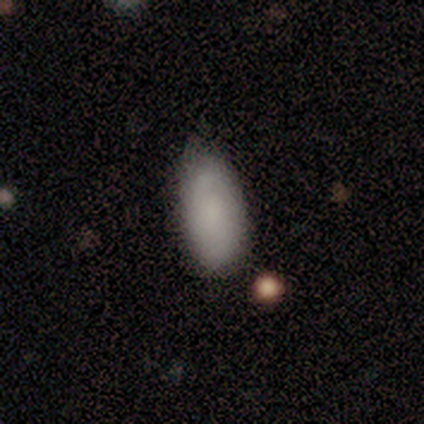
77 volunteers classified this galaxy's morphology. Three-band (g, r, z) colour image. It shows a smooth galaxy with no disk features (81%) that is in between round and cigar-shaped (95%). Merging: none (34%).